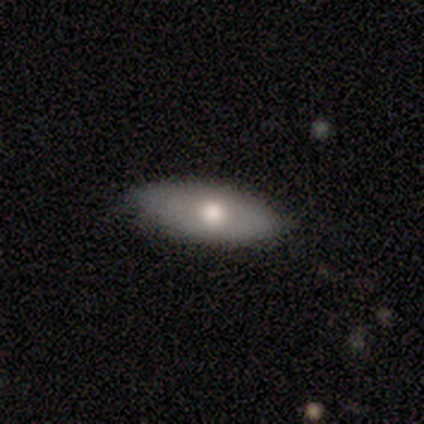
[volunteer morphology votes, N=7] Volunteers were most divided on "smooth or featured": smooth: 57%, featured or disk: 43%, star or artifact: 0%. More confident: how rounded — in between (75%); merging — none (71%).